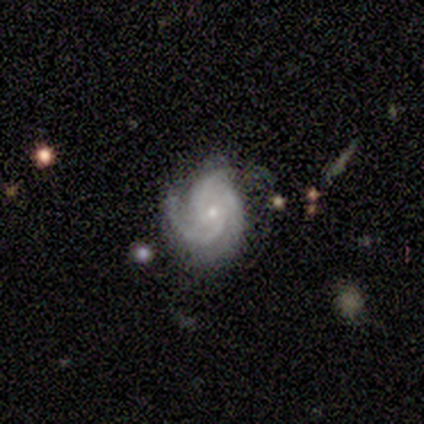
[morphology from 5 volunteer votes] Smooth or featured?
  - featured or disk: 100% *
  - smooth: 0%
  - star or artifact: 0%
Edge-on disk?
  - no: 100% *
  - yes: 0%
Bar?
  - no: 60% *
  - weak: 40%
  - strong: 0%
Spiral arms?
  - yes: 100% *
  - no: 0%
Spiral winding?
  - tight: 100% *
  - medium: 0%
  - loose: 0%
Spiral arm count?
  - 2: 40% * (tied)
  - 3: 40% * (tied)
  - can't tell: 20%
  - 1: 0%
  - 4: 0%
  - more than 4: 0%
Bulge size?
  - moderate: 40% * (tied)
  - small: 40% * (tied)
  - none: 20%
  - dominant: 0%
  - large: 0%
Merging?
  - none: 100% *
  - minor disturbance: 0%
  - major disturbance: 0%
  - merger: 0%